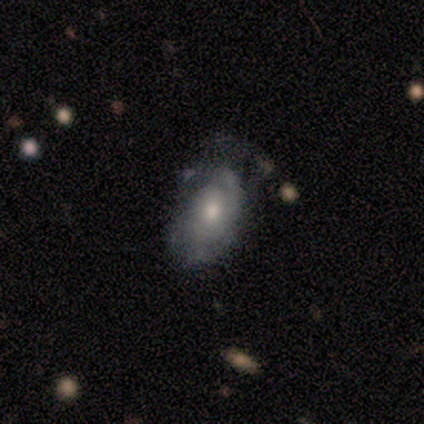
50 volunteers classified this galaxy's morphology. A featured or disk galaxy (68%) with no bar (88%), tight (67%) spiral arms (79%) and a moderate central bulge (65%).

Vote fractions:
- Smooth or featured? featured or disk: 68% / smooth: 28% / star or artifact: 4%
- Edge-on disk? no: 100% / yes: 0%
- Bar? no: 88% / strong: 6% / weak: 6%
- Spiral arms? yes: 79% / no: 21%
- Spiral winding? tight: 67% / loose: 19% / medium: 15%
- Spiral arm count? can't tell: 37% / 2: 33% / 1: 26% / 4: 4% / 3: 0% / more than 4: 0%
- Bulge size? moderate: 65% / small: 32% / large: 3% / dominant: 0% / none: 0%
- Merging? none: 42% / minor disturbance: 33% / major disturbance: 21% / merger: 4%